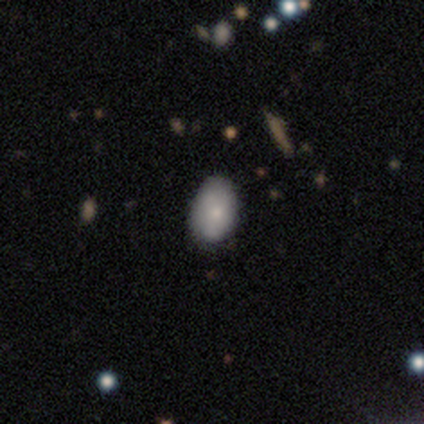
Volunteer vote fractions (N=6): Q: Smooth or featured?
A: smooth (67%); runner-up: featured or disk (17%)
Q: How rounded?
A: in between (75%); runner-up: round (25%)
Q: Merging?
A: none (60%); runner-up: minor disturbance (40%)